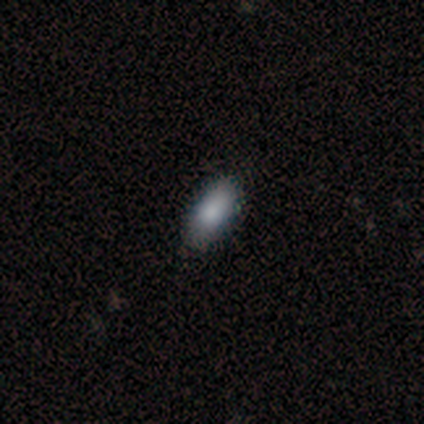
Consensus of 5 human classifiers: smooth-or-featured: smooth: 100% | featured or disk: 0% | star or artifact: 0%
  how-rounded: in between: 80% | cigar-shaped: 20% | round: 0%
  merging: none: 100% | minor disturbance: 0% | major disturbance: 0% | merger: 0%